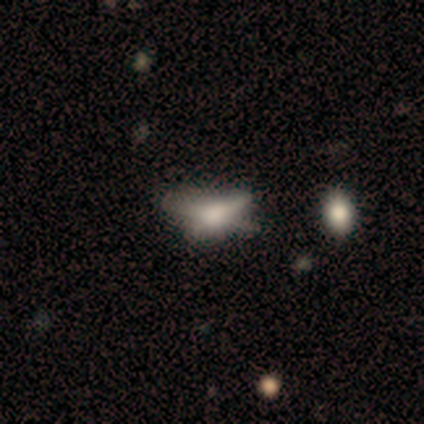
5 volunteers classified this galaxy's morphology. type=featured or disk (80%); edge-on=no (75%); bar=no (67%); spiral arms=no (100%); bulge=large (33%, tied with moderate and none); merging=none (40%, tied with major disturbance).